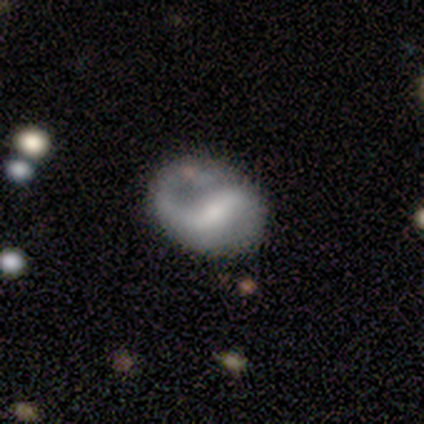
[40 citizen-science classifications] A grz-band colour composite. It shows a featured or disk galaxy (75%) with a strong bar (56%), 2 (71%) medium (42%) spiral arms (89%) and a moderate central bulge (44%). Merging: none (51%).